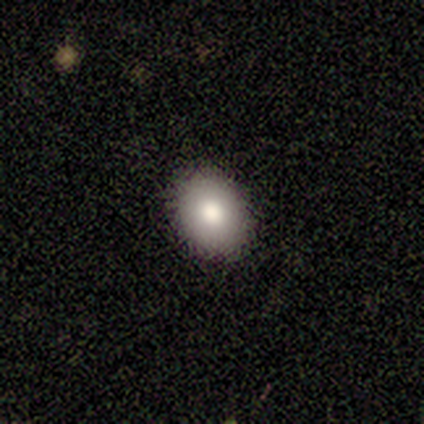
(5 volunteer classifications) smooth-or-featured: smooth: 100% | featured or disk: 0% | star or artifact: 0%
  how-rounded: in between: 80% | round: 20% | cigar-shaped: 0%
  merging: none: 100% | minor disturbance: 0% | major disturbance: 0% | merger: 0%